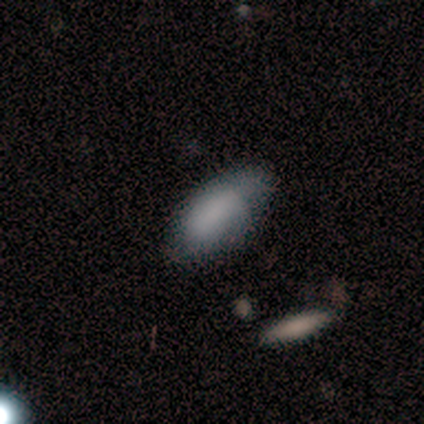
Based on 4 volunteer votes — smooth 100%, featured or disk 0%, star or artifact 0%. Down the decision tree: how rounded — in between (100%); merging — none (100%).